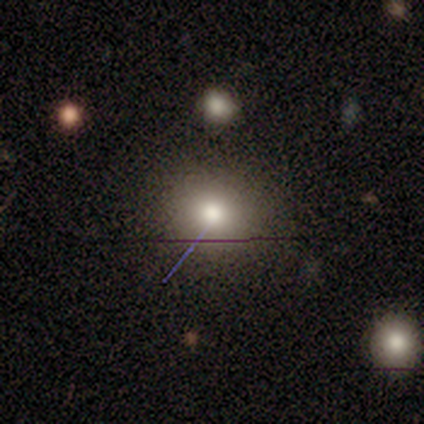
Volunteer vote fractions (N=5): Morphology: type=smooth (60%); roundness=round (100%); merging=minor disturbance (67%).